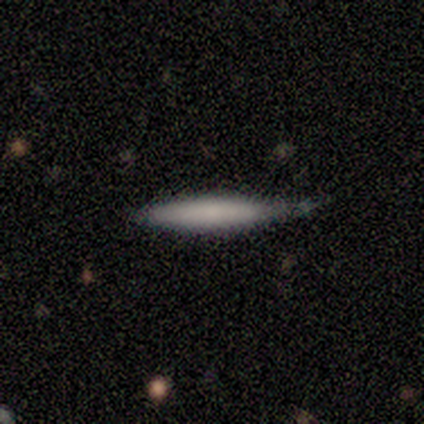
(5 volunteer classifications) This appears to be a smooth galaxy with no disk features (80%) that is cigar-shaped (100%). Merging: minor disturbance (75%).